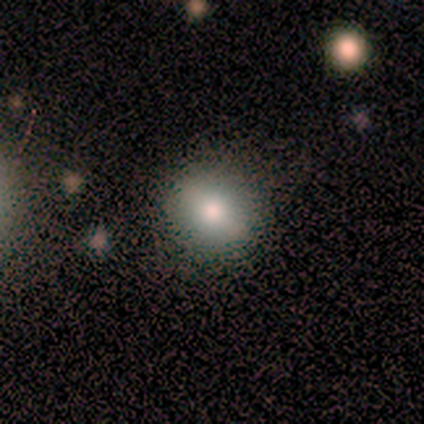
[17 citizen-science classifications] Smooth or featured? smooth (65%)
How rounded? round (91%)
Merging? none (82%)